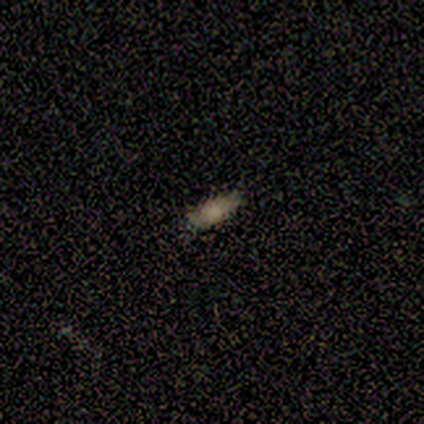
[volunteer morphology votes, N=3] smooth_or_featured: smooth (p=0.67) [alt: star or artifact p=0.33]
how_rounded: in between (p=0.50) [tied with: cigar-shaped p=0.50]
merging: none (p=1.00)